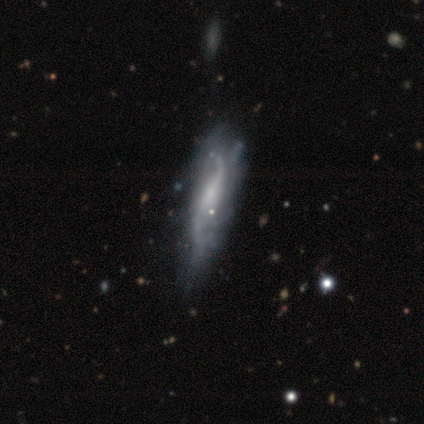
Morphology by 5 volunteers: Smooth or featured: featured or disk — 60% (smooth — 20%)
Edge-on disk: no — 100%
Bar: strong — 33% (tied with weak — 33%; no — 33%)
Spiral arms: yes — 100%
Spiral winding: medium — 67% (loose — 33%)
Spiral arm count: 2 — 67% (can't tell — 33%)
Bulge size: moderate — 33% (tied with small — 33%; none — 33%)
Merging: minor disturbance — 50% (none — 25%)